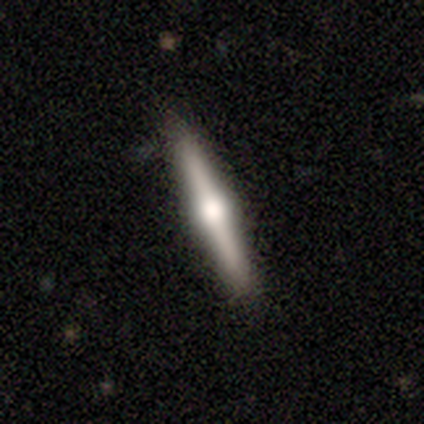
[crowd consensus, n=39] A featured or disk galaxy (72%) viewed edge-on (100%) with a rounded central bulge (93%). Merging: none (97%).